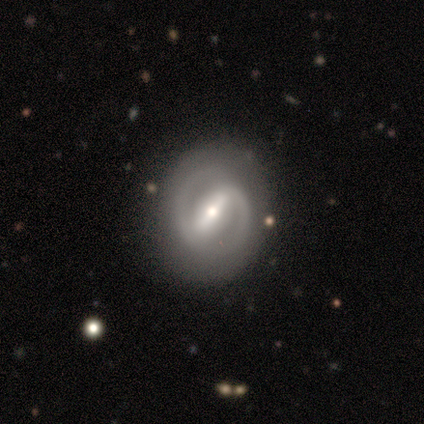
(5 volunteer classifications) Smooth or featured?
  - featured or disk: 100% *
  - smooth: 0%
  - star or artifact: 0%
Edge-on disk?
  - no: 100% *
  - yes: 0%
Bar?
  - strong: 100% *
  - weak: 0%
  - no: 0%
Spiral arms?
  - yes: 80% *
  - no: 20%
Spiral winding?
  - medium: 75% *
  - tight: 25%
  - loose: 0%
Spiral arm count?
  - 2: 75% *
  - 1: 25%
  - 3: 0%
  - 4: 0%
  - more than 4: 0%
  - can't tell: 0%
Bulge size?
  - small: 60% *
  - moderate: 40%
  - dominant: 0%
  - large: 0%
  - none: 0%
Merging?
  - none: 80% *
  - minor disturbance: 20%
  - major disturbance: 0%
  - merger: 0%